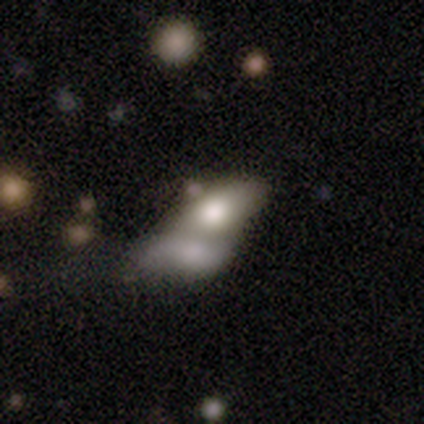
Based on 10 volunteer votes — Smooth or featured?
  - smooth: 80% *
  - featured or disk: 20%
  - star or artifact: 0%
How rounded?
  - in between: 88% *
  - round: 12%
  - cigar-shaped: 0%
Merging?
  - merger: 80% *
  - major disturbance: 20%
  - none: 0%
  - minor disturbance: 0%